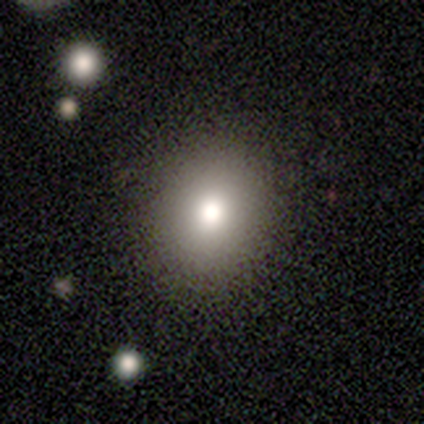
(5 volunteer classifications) Overall: smooth (100%). How rounded: round (80%). Merging: none (100%).